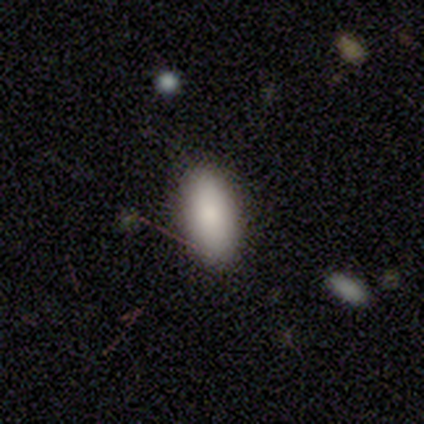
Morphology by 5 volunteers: A smooth galaxy with no disk features (80%) that is in between round and cigar-shaped (100%).

Vote fractions:
- Smooth or featured? smooth: 80% / star or artifact: 20% / featured or disk: 0%
- How rounded? in between: 100% / round: 0% / cigar-shaped: 0%
- Merging? minor disturbance: 75% / none: 25% / major disturbance: 0% / merger: 0%